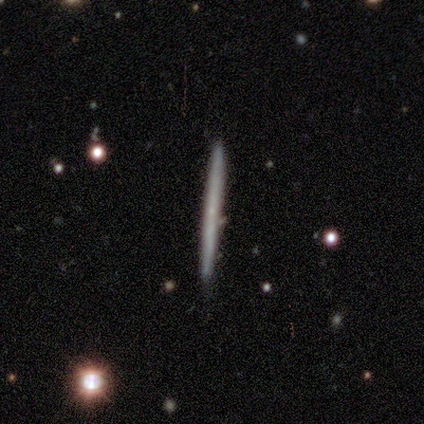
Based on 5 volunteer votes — A featured or disk galaxy (60%) viewed edge-on (100%) with no central bulge (67%). Merging: none (80%).